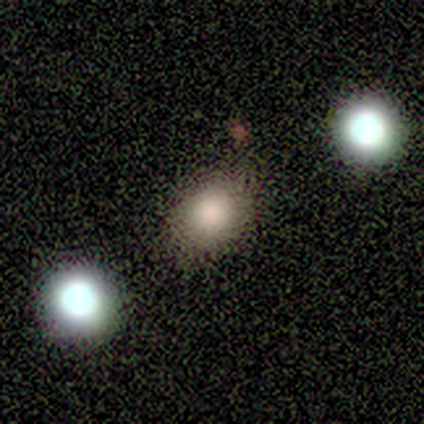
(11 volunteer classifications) Q: Smooth or featured?
A: smooth (64%); runner-up: featured or disk (18%)
Q: How rounded?
A: in between (71%); runner-up: round (29%)
Q: Merging?
A: none (67%); runner-up: minor disturbance (33%)